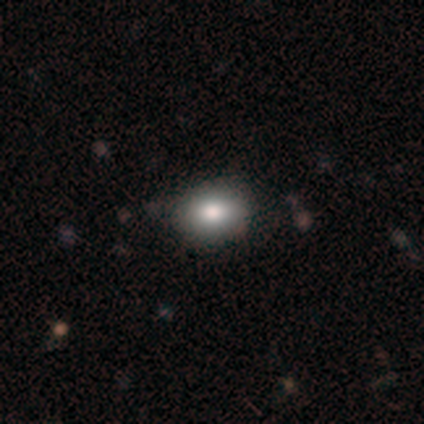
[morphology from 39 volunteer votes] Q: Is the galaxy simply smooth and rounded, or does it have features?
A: smooth — 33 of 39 (85%).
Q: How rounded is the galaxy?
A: in between — 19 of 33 (58%).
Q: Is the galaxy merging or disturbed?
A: none — 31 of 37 (84%).